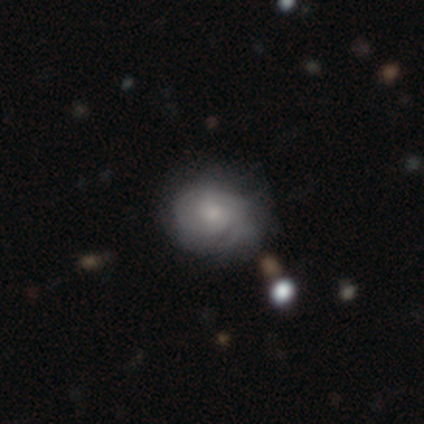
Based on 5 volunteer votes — This appears to be a featured or disk galaxy (60%) with a strong bar (33%, tied with weak and no), no spiral arms (67%) and a moderate central bulge (67%). Merging: none (80%).